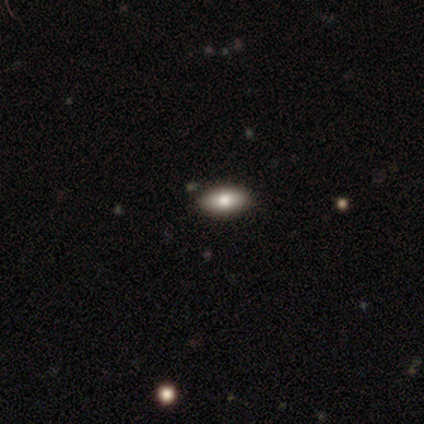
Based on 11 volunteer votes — Smooth or featured? 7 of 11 (64%) said smooth. How rounded? 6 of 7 (86%) said in between. Merging? 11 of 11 (100%) said none.